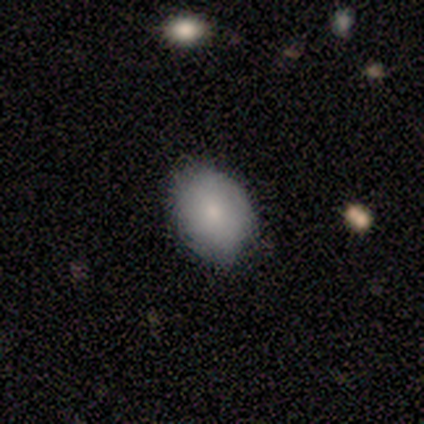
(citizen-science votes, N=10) Smooth or featured? 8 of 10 (80%) said smooth. How rounded? 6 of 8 (75%) said in between. Merging? 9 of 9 (100%) said none.